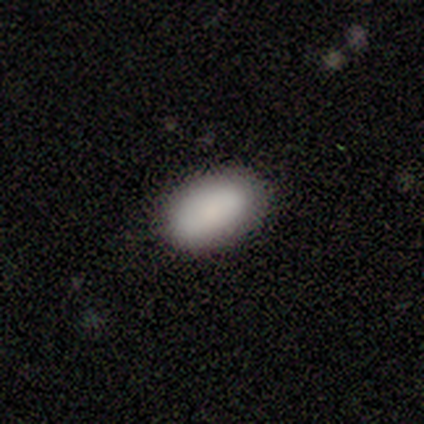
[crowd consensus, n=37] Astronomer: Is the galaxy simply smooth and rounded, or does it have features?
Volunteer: smooth — 92%.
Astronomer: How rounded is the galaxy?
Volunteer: in between — 94%.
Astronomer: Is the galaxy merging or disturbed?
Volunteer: none — 83%.